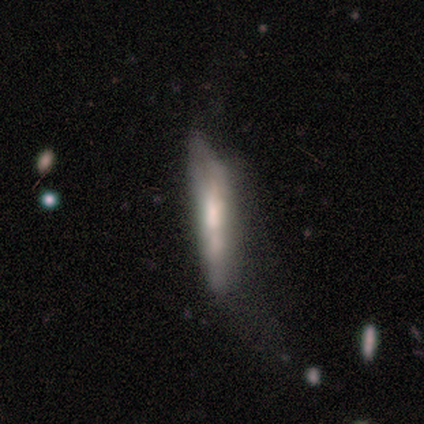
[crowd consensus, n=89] A smooth galaxy with no disk features (53%) that is cigar-shaped (91%). Merging: major disturbance (35%).